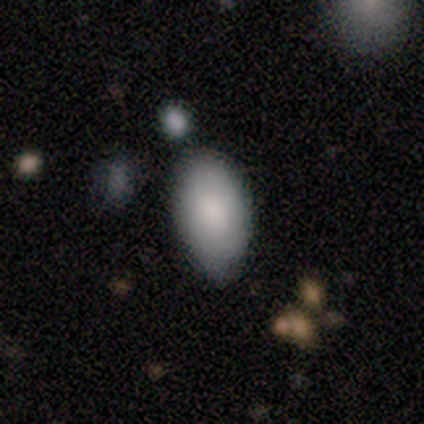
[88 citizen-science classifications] smooth 88%, star or artifact 7%, featured or disk 6%. Down the decision tree: how rounded — in between (96%); merging — none (63%).